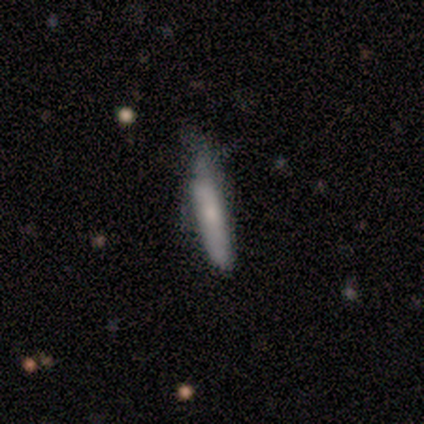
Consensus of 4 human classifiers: smooth 100%, featured or disk 0%, star or artifact 0%. Down the decision tree: how rounded — cigar-shaped (100%); merging — none (50%, tied with major disturbance).